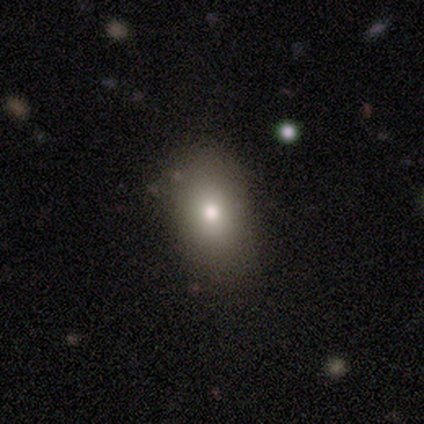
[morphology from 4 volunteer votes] Overall: smooth (50%, tied with featured or disk). How rounded: in between (100%). Merging: none (75%).